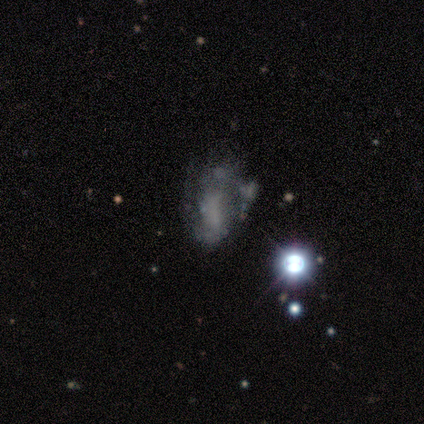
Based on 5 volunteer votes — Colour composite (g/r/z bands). It shows a star or artifact, not a galaxy (60%).